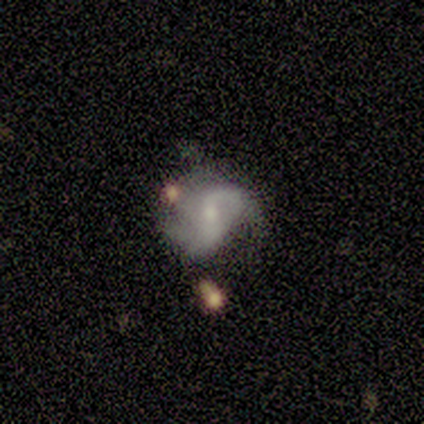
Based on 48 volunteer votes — This is likely a featured or disk galaxy (79%). It is clearly not viewed edge-on (100%). Bar: possibly weak (50%). Spiral arm pattern: clearly yes (97%). Spiral arm count: possibly 2 (54%). Spiral winding: possibly loose (57%). Central bulge: possibly small (47%). Merging: marginally none (40%).